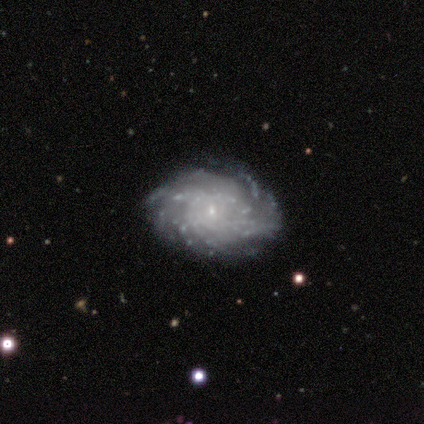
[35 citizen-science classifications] A featured or disk galaxy (94%) with no bar (58%), more than 4 (56%) tight (56%) spiral arms (97%) and a small central bulge (88%). Merging: none (82%).